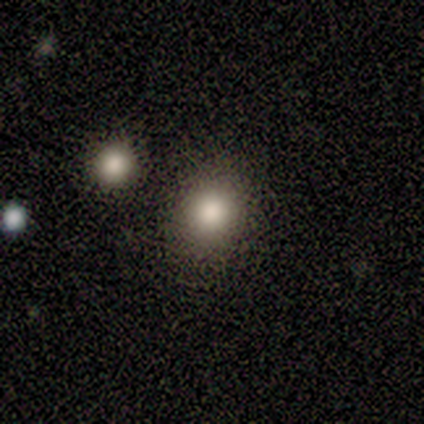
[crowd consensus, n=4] Q: Smooth or featured?
A: smooth (100%)
Q: How rounded?
A: round (50%); tied with: in between (50%)
Q: Merging?
A: none (75%); runner-up: minor disturbance (25%)